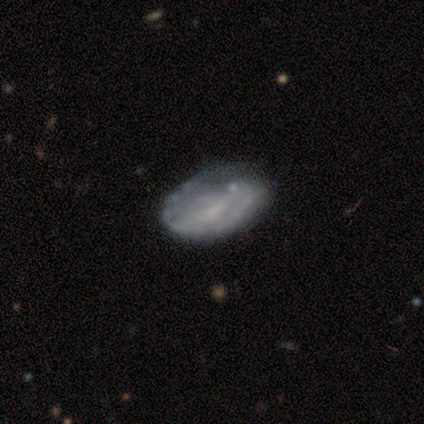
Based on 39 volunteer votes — Smooth or featured?
  - featured or disk: 79% *
  - smooth: 18%
  - star or artifact: 3%
Edge-on disk?
  - no: 94% *
  - yes: 6%
Bar?
  - no: 55% *
  - weak: 34%
  - strong: 10%
Spiral arms?
  - no: 59% *
  - yes: 41%
Bulge size?
  - small: 45% *
  - none: 41%
  - moderate: 14%
  - dominant: 0%
  - large: 0%
Merging?
  - none: 26% *
  - minor disturbance: 24%
  - major disturbance: 11%
  - merger: 3%